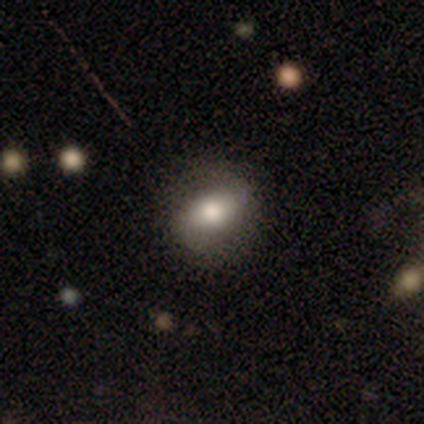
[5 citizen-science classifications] Smooth or featured? 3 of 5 (60%) said featured or disk. Edge-on disk? 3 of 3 (100%) said no. Bar? 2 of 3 (67%) said strong. Spiral arms? 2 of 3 (67%) said yes. Spiral winding? 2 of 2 (100%) said medium. Spiral arm count? 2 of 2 (100%) said 2. Bulge size? 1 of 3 (33%, tied with moderate and small) said large. Merging? 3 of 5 (60%) said none.